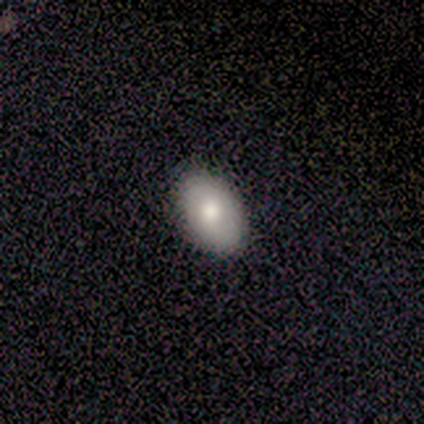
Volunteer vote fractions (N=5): This is likely a smooth galaxy (60%). How rounded: clearly in between (100%). Merging: likely none (75%).